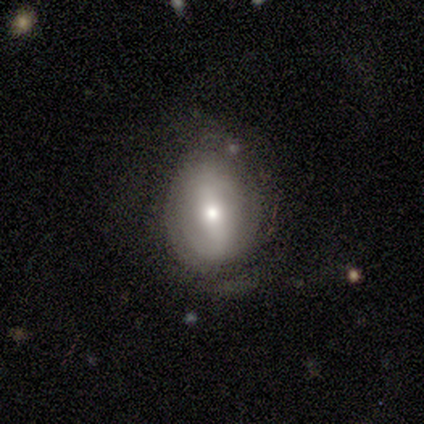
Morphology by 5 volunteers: smooth 60%, featured or disk 40%, star or artifact 0%. Down the decision tree: how rounded — in between (67%); merging — minor disturbance (60%).